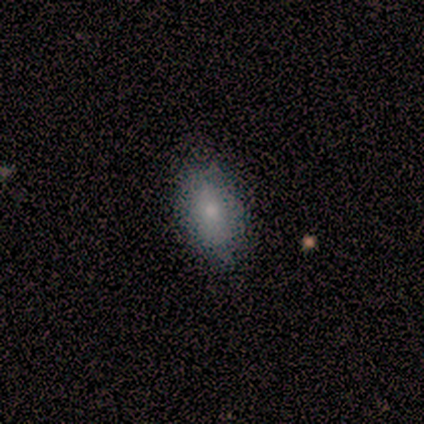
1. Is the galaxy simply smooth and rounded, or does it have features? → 100% smooth, 0% featured or disk, 0% star or artifact.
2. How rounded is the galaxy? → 100% in between, 0% round, 0% cigar-shaped.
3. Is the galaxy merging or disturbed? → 80% none, 20% minor disturbance, 0% major disturbance, 0% merger.